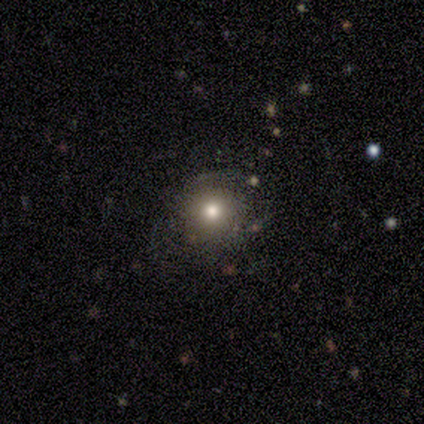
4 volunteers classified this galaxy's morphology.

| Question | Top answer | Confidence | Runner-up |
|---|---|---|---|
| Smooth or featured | smooth | 100% | — |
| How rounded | round | 100% | — |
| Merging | none | 75% | major disturbance (25%) |